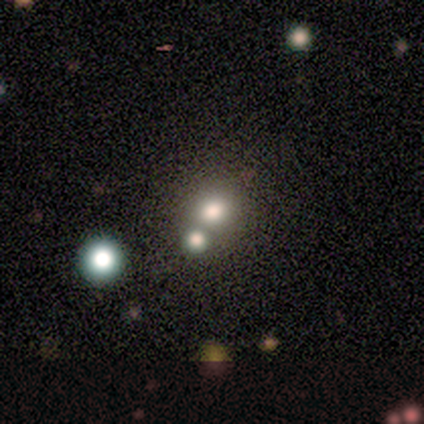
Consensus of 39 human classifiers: This appears to be a smooth galaxy with no disk features (62%) that is round (79%). Merging: none (52%).